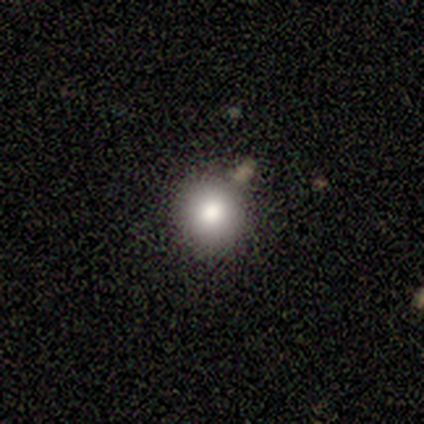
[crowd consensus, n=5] smooth-or-featured: smooth: 100% | featured or disk: 0% | star or artifact: 0%
  how-rounded: round: 100% | in between: 0% | cigar-shaped: 0%
  merging: none: 100% | minor disturbance: 0% | major disturbance: 0% | merger: 0%